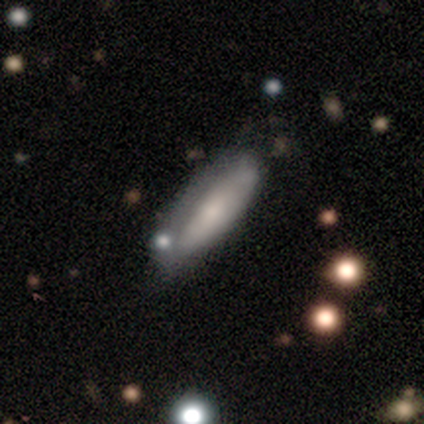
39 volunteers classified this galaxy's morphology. Smooth or featured: smooth — 59% (featured or disk — 38%)
How rounded: cigar-shaped — 65% (in between — 35%)
Merging: none — 50% (minor disturbance — 18%)